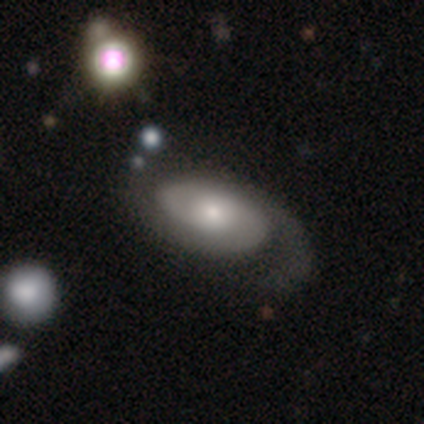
Smooth or featured? 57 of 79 (72%) said featured or disk. Edge-on disk? 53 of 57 (93%) said no. Bar? 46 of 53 (87%) said no. Spiral arms? 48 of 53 (91%) said yes. Spiral winding? 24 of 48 (50%) said medium. Spiral arm count? 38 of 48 (79%) said 2. Bulge size? 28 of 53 (53%) said moderate. Merging? 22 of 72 (31%) said none.